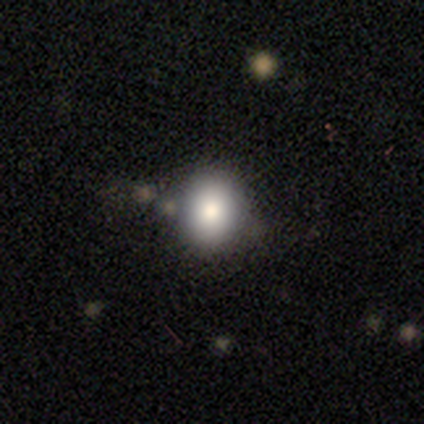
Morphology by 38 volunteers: Volunteers were most divided on "how rounded": round: 72%, in between: 28%, cigar-shaped: 0%. More confident: merging — none (82%); smooth or featured — smooth (76%).